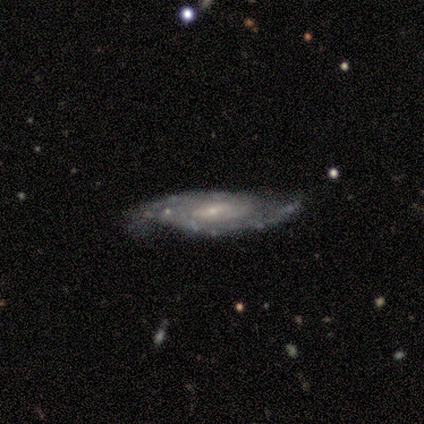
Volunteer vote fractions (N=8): Q: Smooth or featured?
A: featured or disk (88%); runner-up: star or artifact (12%)
Q: Edge-on disk?
A: no (86%); runner-up: yes (14%)
Q: Bar?
A: no (67%); runner-up: strong (17%)
Q: Spiral arms?
A: yes (100%)
Q: Spiral winding?
A: tight (67%); runner-up: medium (33%)
Q: Spiral arm count?
A: 2 (50%); runner-up: can't tell (33%)
Q: Bulge size?
A: small (83%); runner-up: large (17%)
Q: Merging?
A: none (86%); runner-up: minor disturbance (14%)